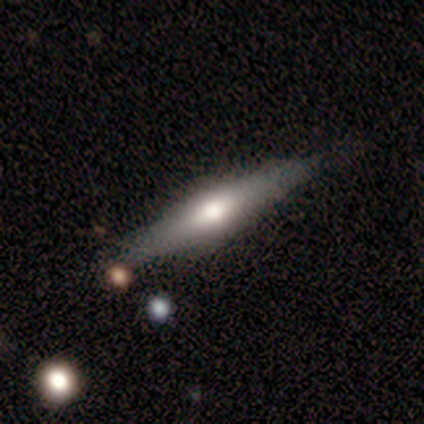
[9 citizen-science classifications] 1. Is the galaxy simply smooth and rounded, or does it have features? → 67% featured or disk, 33% smooth, 0% star or artifact.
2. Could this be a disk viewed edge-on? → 67% yes, 33% no.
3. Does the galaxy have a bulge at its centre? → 75% rounded, 25% boxy, 0% none.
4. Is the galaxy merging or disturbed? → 78% none, 11% major disturbance, 11% merger, 0% minor disturbance.